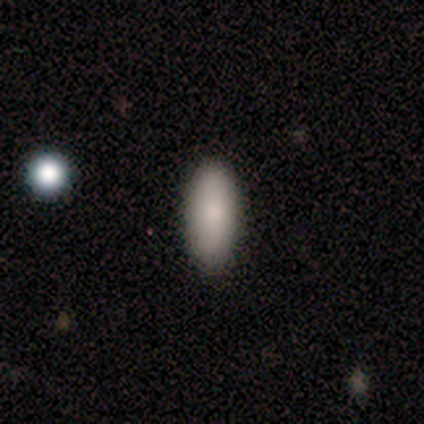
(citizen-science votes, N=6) Q: Smooth or featured?
A: smooth (100%)
Q: How rounded?
A: in between (83%); runner-up: cigar-shaped (17%)
Q: Merging?
A: none (83%); runner-up: minor disturbance (17%)